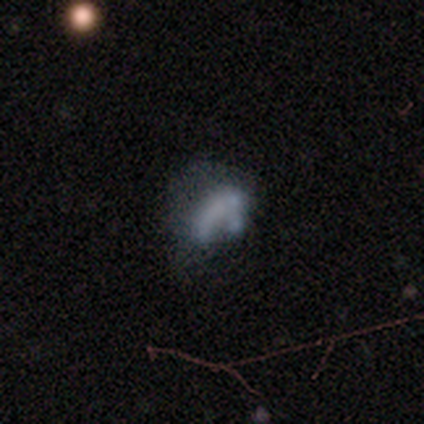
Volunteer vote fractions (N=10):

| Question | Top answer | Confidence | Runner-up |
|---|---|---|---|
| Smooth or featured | featured or disk | 50% | smooth (40%) |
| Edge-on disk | no | 100% | — |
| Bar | no | 100% | — |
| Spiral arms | no | 100% | — |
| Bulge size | none | 80% | large (20%) |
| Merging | merger | 56% | major disturbance (22%) |